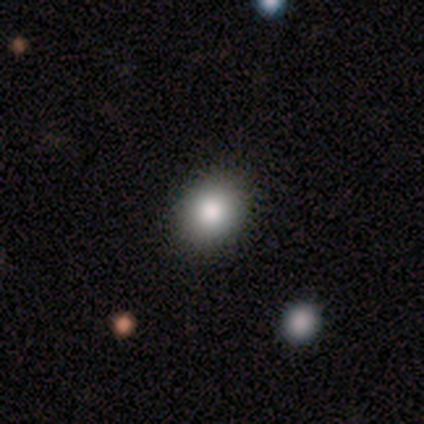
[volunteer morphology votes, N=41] smooth_or_featured: smooth (p=0.71) [alt: featured or disk p=0.17]
how_rounded: round (p=0.52) [alt: in between p=0.48]
merging: none (p=0.89) [alt: minor disturbance p=0.08]